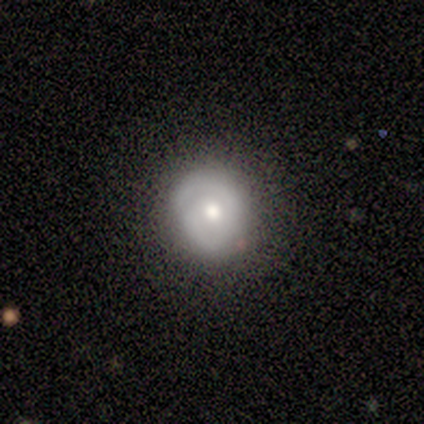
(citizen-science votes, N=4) Morphology: type=smooth (50%, tied with featured or disk); roundness=round (100%); merging=none (75%).